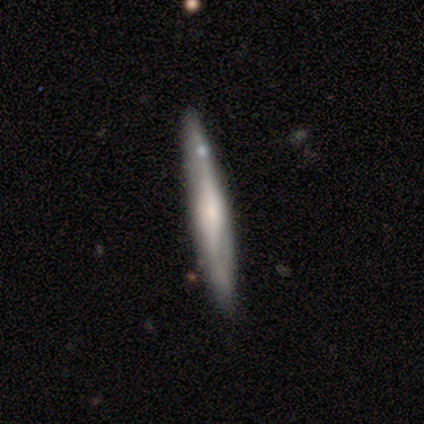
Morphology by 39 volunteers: type=featured or disk (74%); edge-on=yes (90%); edge-on bulge=rounded (54%); merging=none (84%).